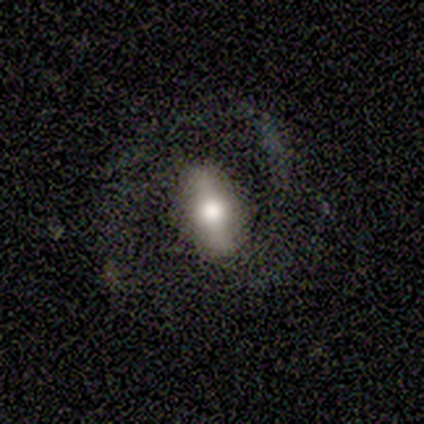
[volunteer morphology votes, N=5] Q: Smooth or featured?
A: featured or disk (80%); runner-up: smooth (20%)
Q: Edge-on disk?
A: no (75%); runner-up: yes (25%)
Q: Bar?
A: strong (67%); runner-up: weak (33%)
Q: Spiral arms?
A: yes (100%)
Q: Spiral winding?
A: loose (67%); runner-up: tight (33%)
Q: Spiral arm count?
A: 2 (33%); tied with: 3 (33%); can't tell (33%)
Q: Bulge size?
A: large (33%); tied with: moderate (33%); small (33%)
Q: Merging?
A: none (40%); tied with: major disturbance (40%)